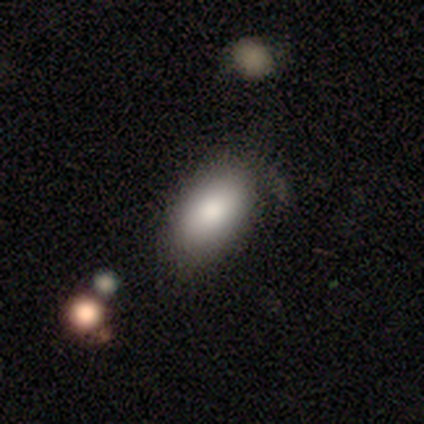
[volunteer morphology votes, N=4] Smooth or featured?
  - smooth: 75% *
  - featured or disk: 25%
  - star or artifact: 0%
How rounded?
  - in between: 100% *
  - round: 0%
  - cigar-shaped: 0%
Merging?
  - none: 75% *
  - minor disturbance: 25%
  - major disturbance: 0%
  - merger: 0%